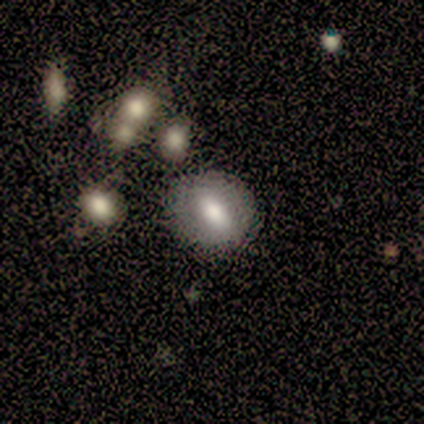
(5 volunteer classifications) smooth-or-featured: smooth: 80% | featured or disk: 20% | star or artifact: 0%
  how-rounded: in between: 75% | round: 25% | cigar-shaped: 0%
  merging: none: 100% | minor disturbance: 0% | major disturbance: 0% | merger: 0%